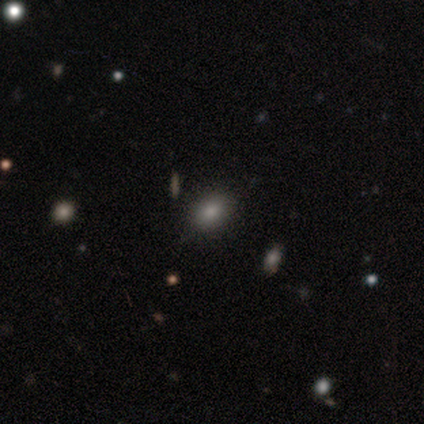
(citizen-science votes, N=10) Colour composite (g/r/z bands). It shows a smooth galaxy with no disk features (80%) that is in between round and cigar-shaped (75%). Merging: none (100%).